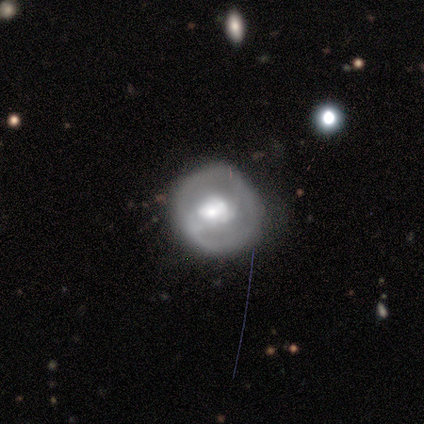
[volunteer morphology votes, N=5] Volunteers were most divided on "bulge size" (2-way tie): large: 50%, moderate: 50%, dominant: 0%, small: 0%, none: 0%. More confident: edge-on disk — no (100%); smooth or featured — featured or disk (80%); bar — no (75%); spiral arms — no (75%); merging — none (75%).